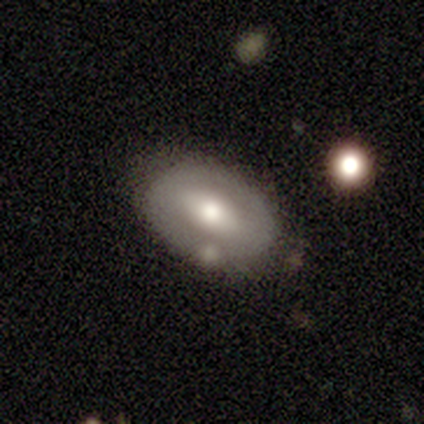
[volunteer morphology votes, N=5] A smooth galaxy with no disk features (80%) that is in between round and cigar-shaped (100%). Merging: none (100%).